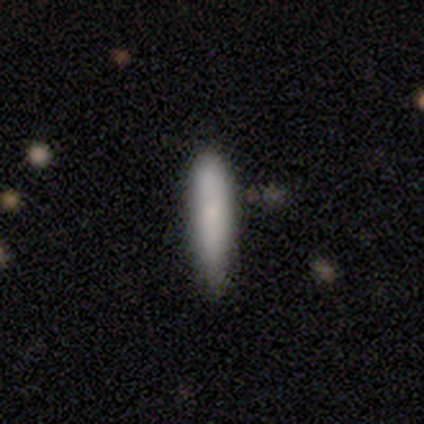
Smooth or featured? 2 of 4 (50%, tied with featured or disk) said smooth. How rounded? 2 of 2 (100%) said cigar-shaped. Merging? 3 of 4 (75%) said none.